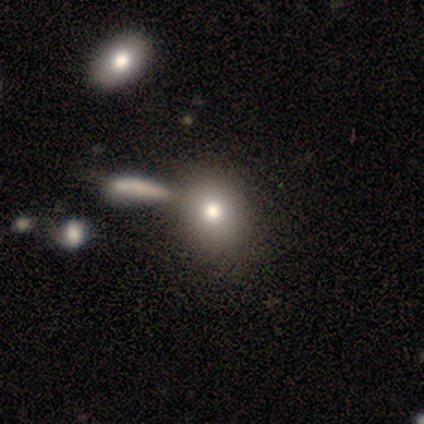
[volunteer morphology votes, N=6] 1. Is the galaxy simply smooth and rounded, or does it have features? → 83% smooth, 17% star or artifact, 0% featured or disk.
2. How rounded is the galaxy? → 100% in between, 0% round, 0% cigar-shaped.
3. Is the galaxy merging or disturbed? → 60% none, 40% merger, 0% minor disturbance, 0% major disturbance.